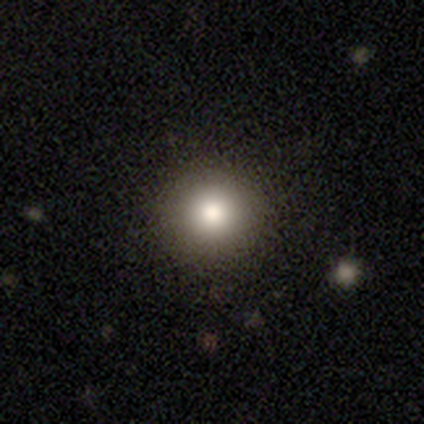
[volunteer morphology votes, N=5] Smooth or featured: smooth — 40% (tied with featured or disk — 40%)
How rounded: round — 100%
Merging: none — 100%